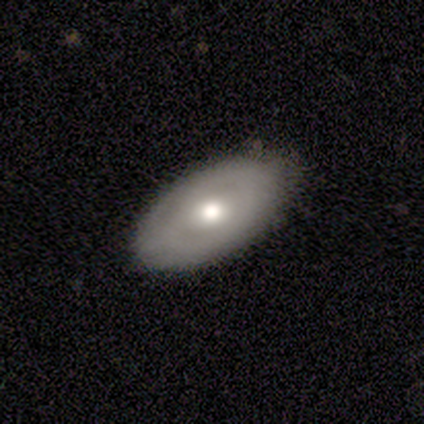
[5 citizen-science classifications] Smooth or featured: featured or disk — 80% (smooth — 20%)
Edge-on disk: no — 100%
Bar: no — 100%
Spiral arms: yes — 75% (no — 25%)
Spiral winding: tight — 67% (medium — 33%)
Spiral arm count: can't tell — 100%
Bulge size: moderate — 100%
Merging: none — 80% (major disturbance — 20%)